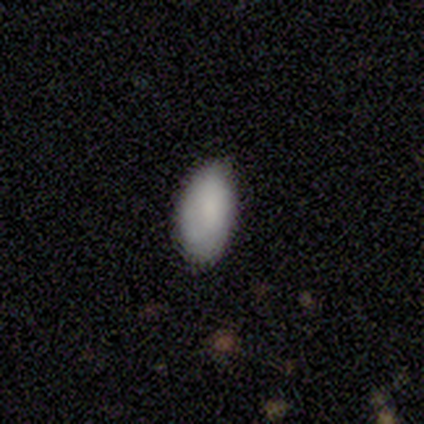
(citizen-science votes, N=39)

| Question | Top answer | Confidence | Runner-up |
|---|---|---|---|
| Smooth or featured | smooth | 95% | featured or disk (5%) |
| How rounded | in between | 100% | — |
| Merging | none | 79% | minor disturbance (21%) |